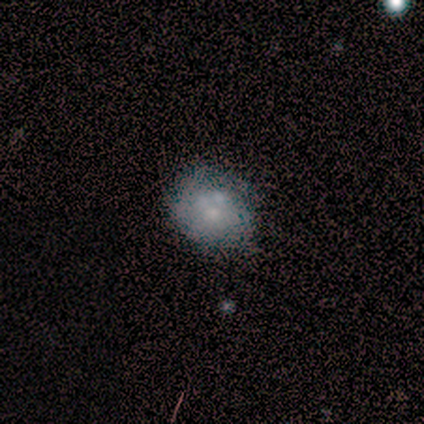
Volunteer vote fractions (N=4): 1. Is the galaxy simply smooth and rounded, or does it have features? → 50% smooth, 25% featured or disk, 25% star or artifact.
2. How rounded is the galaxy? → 100% round, 0% in between, 0% cigar-shaped.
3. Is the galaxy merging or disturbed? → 67% minor disturbance, 33% none, 0% major disturbance, 0% merger.